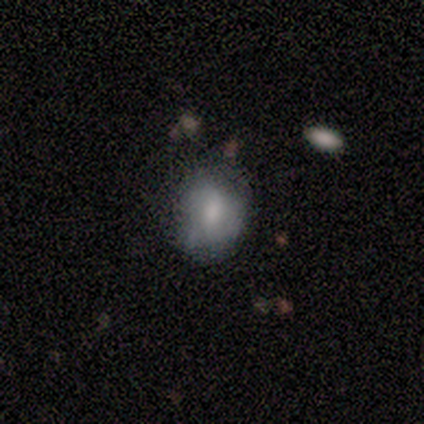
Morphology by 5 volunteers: Overall: smooth (60%; featured or disk 20%). How rounded: round (100%). Merging: none (50%, tied with minor disturbance).